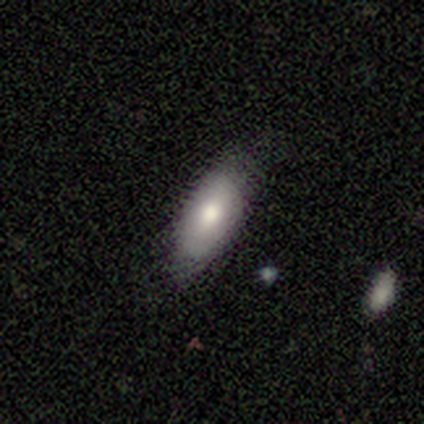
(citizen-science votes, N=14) A smooth galaxy with no disk features (86%) that is in between round and cigar-shaped (67%). Merging: none (79%).